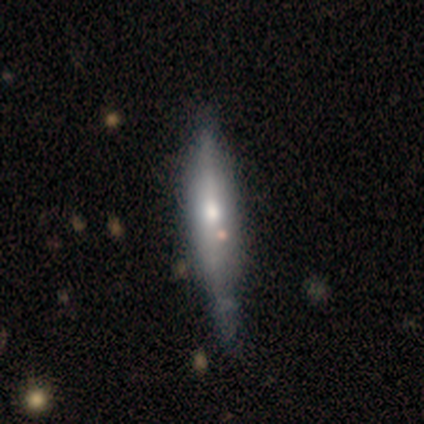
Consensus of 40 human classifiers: Overall: featured or disk (57%; smooth 42%). Edge-on disk: yes (96%). Edge-on bulge: rounded (82%). Merging: none (35%; minor disturbance 28%).